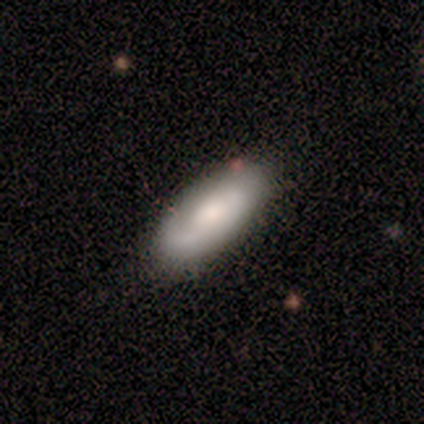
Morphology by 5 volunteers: Smooth or featured: smooth — 60% (featured or disk — 40%)
How rounded: in between — 100%
Merging: none — 60% (minor disturbance — 40%)